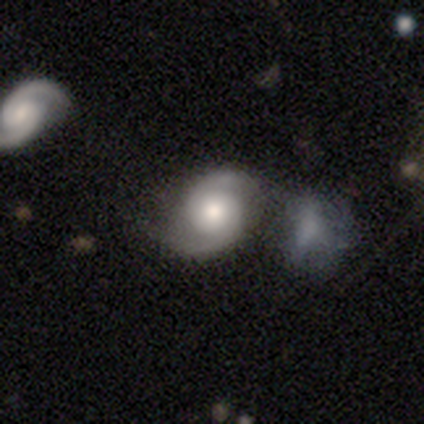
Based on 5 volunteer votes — Q: Smooth or featured?
A: featured or disk (100%)
Q: Edge-on disk?
A: no (100%)
Q: Bar?
A: no (60%); runner-up: strong (20%)
Q: Spiral arms?
A: yes (80%); runner-up: no (20%)
Q: Spiral winding?
A: tight (50%); tied with: medium (50%)
Q: Spiral arm count?
A: 2 (100%)
Q: Bulge size?
A: moderate (40%); tied with: small (40%)
Q: Merging?
A: none (80%); runner-up: minor disturbance (20%)